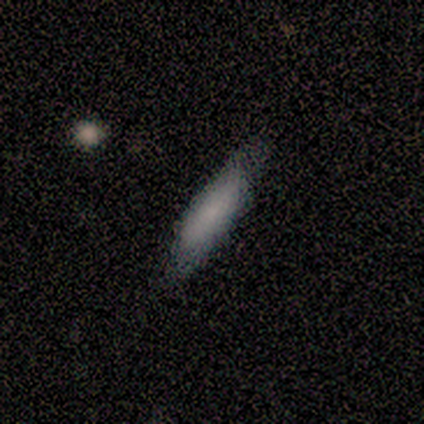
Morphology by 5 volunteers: Smooth or featured? smooth (60%)
How rounded? cigar-shaped (67%)
Merging? none (80%)